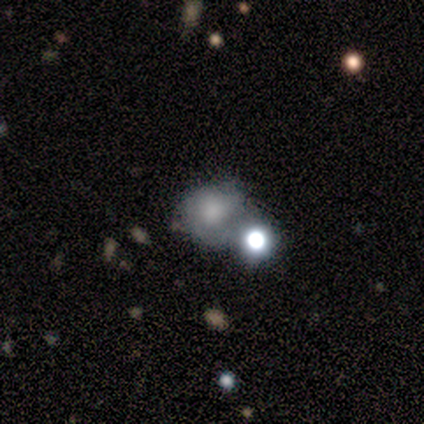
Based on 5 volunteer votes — Morphology: type=smooth (40%, tied with star or artifact); roundness=round (100%); merging=none (33%, tied with minor disturbance and merger).